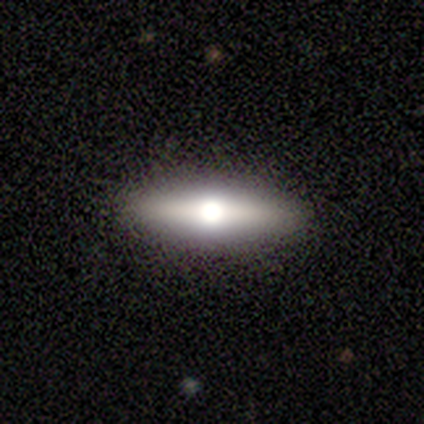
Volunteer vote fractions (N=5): Volunteers were most divided on "smooth or featured": featured or disk: 60%, smooth: 40%, star or artifact: 0%. More confident: edge-on disk — yes (100%); edge-on bulge — rounded (100%); merging — none (100%).